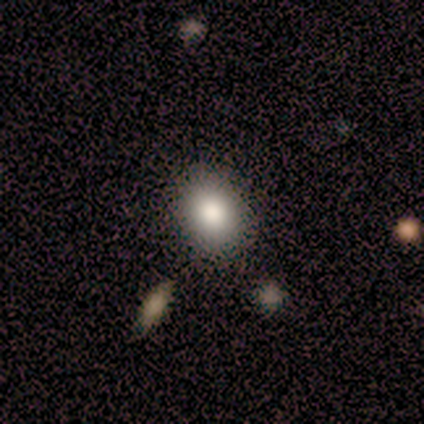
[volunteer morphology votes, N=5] Smooth or featured?
  - smooth: 80% *
  - star or artifact: 20%
  - featured or disk: 0%
How rounded?
  - in between: 100% *
  - round: 0%
  - cigar-shaped: 0%
Merging?
  - none: 75% *
  - minor disturbance: 25%
  - major disturbance: 0%
  - merger: 0%